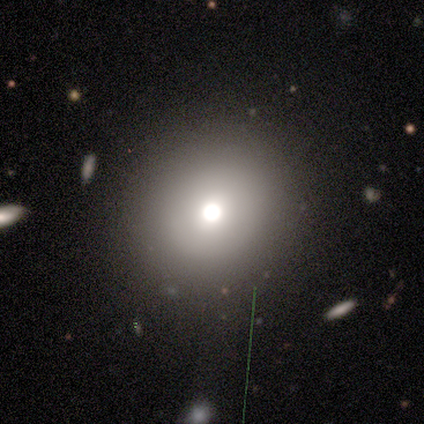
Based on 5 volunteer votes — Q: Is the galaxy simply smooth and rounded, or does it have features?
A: smooth — 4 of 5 (80%).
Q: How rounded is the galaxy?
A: round — 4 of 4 (100%).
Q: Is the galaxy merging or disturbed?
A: none — 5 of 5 (100%).